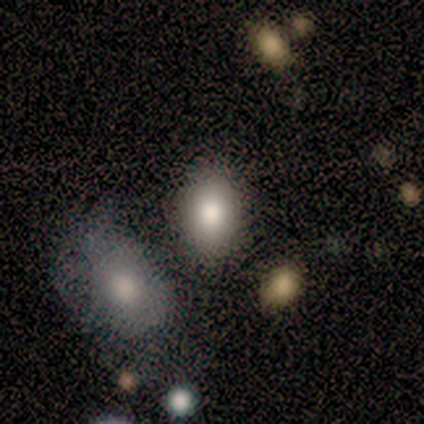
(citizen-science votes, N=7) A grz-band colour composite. It shows a smooth galaxy with no disk features (43%, tied with star or artifact) that is in between round and cigar-shaped (67%). Merging: none (75%).